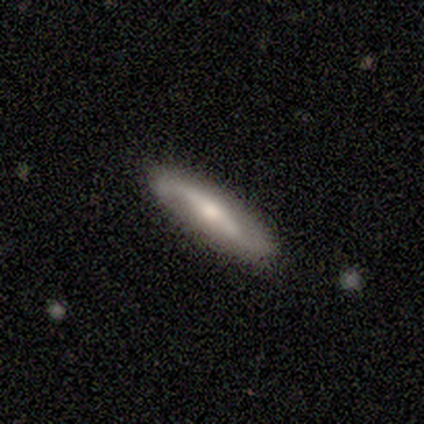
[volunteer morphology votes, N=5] A smooth galaxy with no disk features (80%) that is cigar-shaped (100%).

Vote fractions:
- Smooth or featured? smooth: 80% / star or artifact: 20% / featured or disk: 0%
- How rounded? cigar-shaped: 100% / round: 0% / in between: 0%
- Merging? none: 75% / minor disturbance: 25% / major disturbance: 0% / merger: 0%